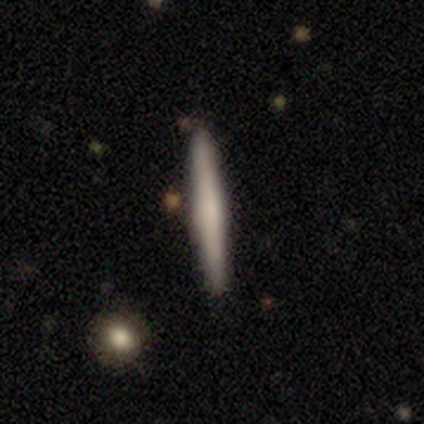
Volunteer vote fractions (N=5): smooth_or_featured: smooth (p=0.80) [alt: featured or disk p=0.20]
how_rounded: cigar-shaped (p=1.00)
merging: none (p=0.80) [alt: minor disturbance p=0.20]